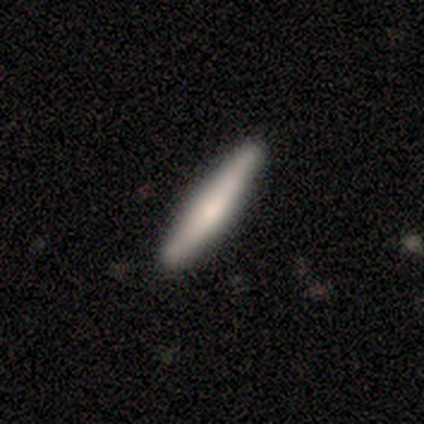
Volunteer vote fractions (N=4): Smooth or featured?
  - smooth: 50% *
  - featured or disk: 25%
  - star or artifact: 25%
How rounded?
  - in between: 50% * (tied)
  - cigar-shaped: 50% * (tied)
  - round: 0%
Merging?
  - none: 67% *
  - minor disturbance: 33%
  - major disturbance: 0%
  - merger: 0%